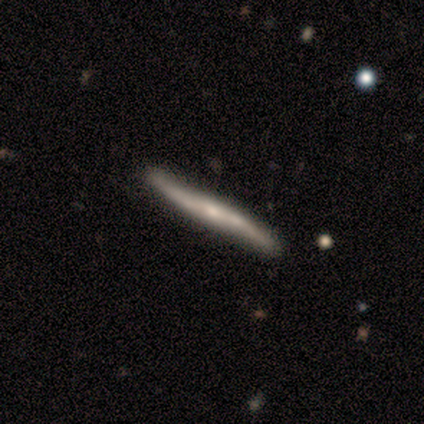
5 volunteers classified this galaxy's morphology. Smooth or featured? featured or disk (80%)
Edge-on disk? yes (100%)
Edge-on bulge? rounded (100%)
Merging? none (80%)